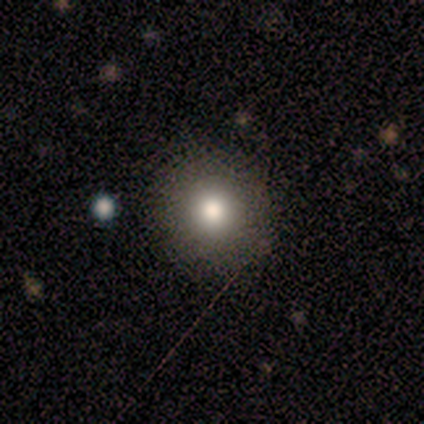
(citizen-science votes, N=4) smooth-or-featured: smooth: 100% | featured or disk: 0% | star or artifact: 0%
  how-rounded: round: 100% | in between: 0% | cigar-shaped: 0%
  merging: none: 100% | minor disturbance: 0% | major disturbance: 0% | merger: 0%